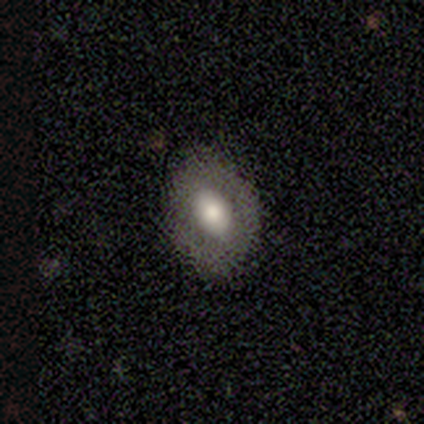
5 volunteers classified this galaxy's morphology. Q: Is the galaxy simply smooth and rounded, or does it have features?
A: smooth — 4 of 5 (80%).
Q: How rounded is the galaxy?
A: round — 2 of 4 (50%, tied with in between).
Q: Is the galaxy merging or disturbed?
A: none — 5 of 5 (100%).